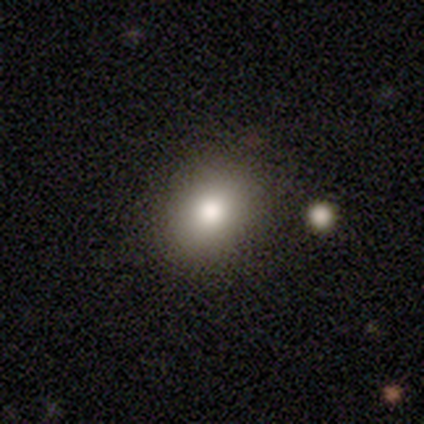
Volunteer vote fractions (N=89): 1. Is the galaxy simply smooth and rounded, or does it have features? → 81% smooth, 11% star or artifact, 8% featured or disk.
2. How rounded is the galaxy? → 54% in between, 44% round, 1% cigar-shaped.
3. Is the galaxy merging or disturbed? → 85% none, 9% minor disturbance, 4% major disturbance, 3% merger.